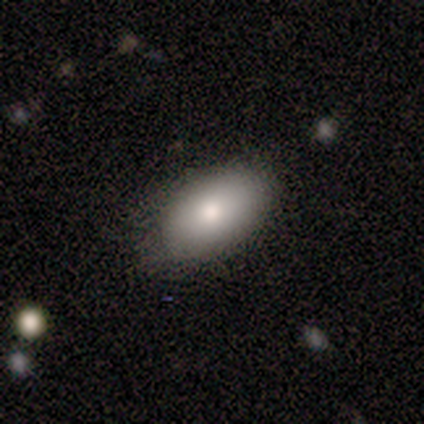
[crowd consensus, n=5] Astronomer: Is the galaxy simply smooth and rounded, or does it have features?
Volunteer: smooth — 80%.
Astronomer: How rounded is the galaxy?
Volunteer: in between — 100%.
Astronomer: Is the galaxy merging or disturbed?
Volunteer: none — 80%.